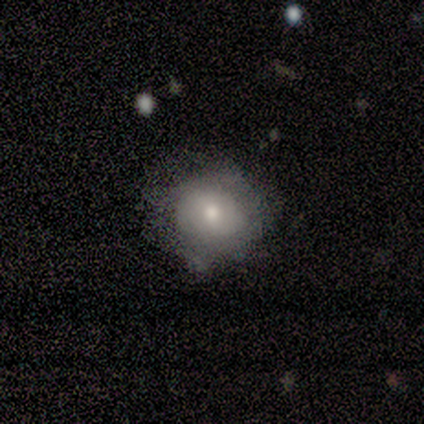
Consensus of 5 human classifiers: Overall: smooth (80%). How rounded: round (50%, tied with in between). Merging: none (80%).